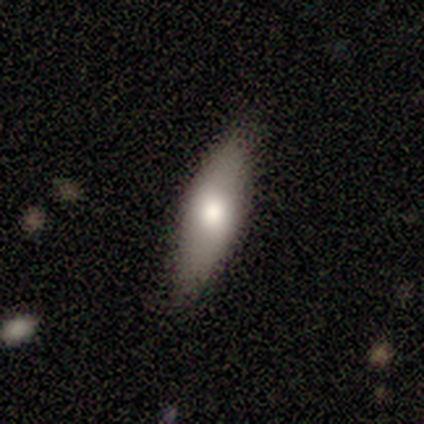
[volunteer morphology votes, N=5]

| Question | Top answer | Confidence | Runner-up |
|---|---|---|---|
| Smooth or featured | smooth | 100% | — |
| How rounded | cigar-shaped | 60% | in between (40%) |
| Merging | none | 100% | — |